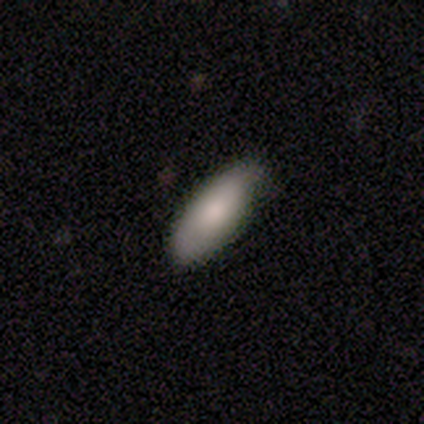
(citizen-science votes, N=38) Smooth or featured? 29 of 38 (76%) said smooth. How rounded? 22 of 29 (76%) said in between. Merging? 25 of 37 (68%) said none.